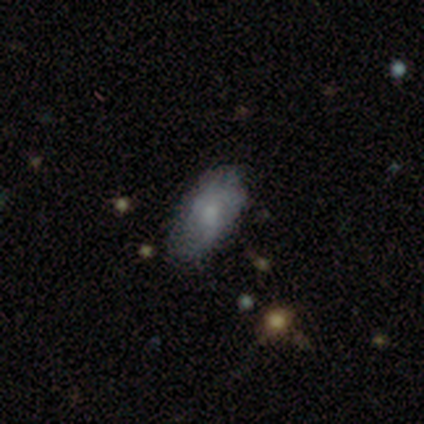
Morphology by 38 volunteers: A smooth galaxy with no disk features (68%) that is in between round and cigar-shaped (92%). Merging: none (68%).